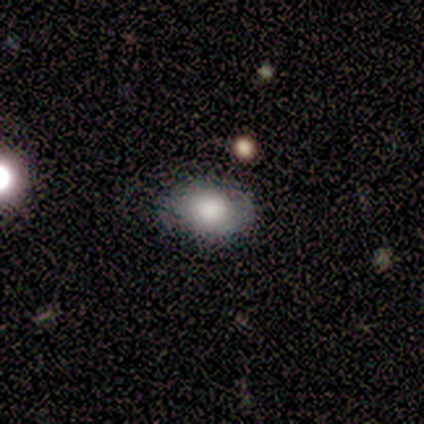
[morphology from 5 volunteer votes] Smooth or featured? smooth (80%)
How rounded? in between (100%)
Merging? none (100%)